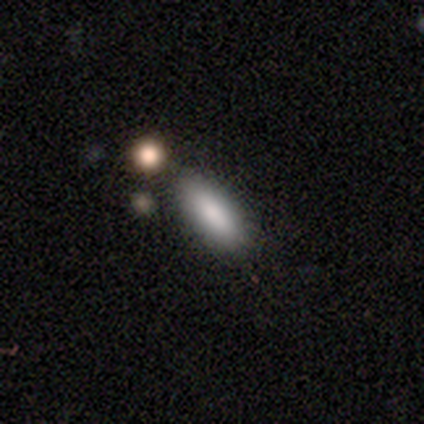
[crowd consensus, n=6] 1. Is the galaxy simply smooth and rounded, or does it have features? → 100% smooth, 0% featured or disk, 0% star or artifact.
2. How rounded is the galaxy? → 67% in between, 33% cigar-shaped, 0% round.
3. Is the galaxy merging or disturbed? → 83% none, 17% minor disturbance, 0% major disturbance, 0% merger.